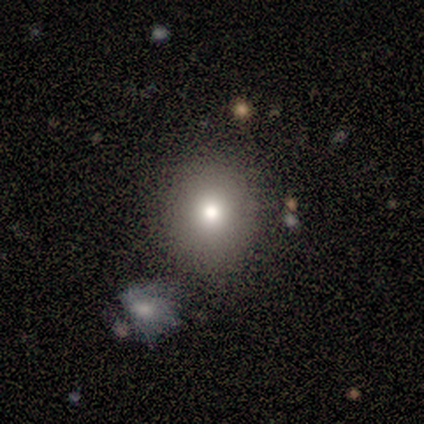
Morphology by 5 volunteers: A smooth galaxy with no disk features (100%) that is round (100%).

Vote fractions:
- Smooth or featured? smooth: 100% / featured or disk: 0% / star or artifact: 0%
- How rounded? round: 100% / in between: 0% / cigar-shaped: 0%
- Merging? none: 80% / minor disturbance: 20% / major disturbance: 0% / merger: 0%